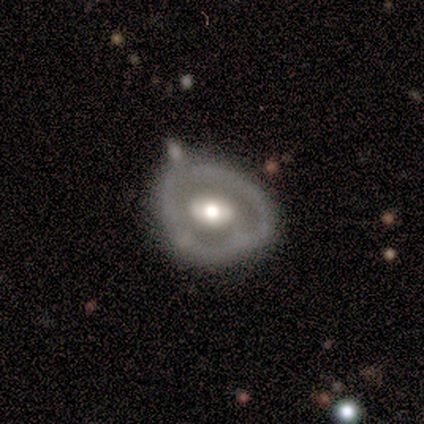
Smooth or featured?
  - featured or disk: 67% *
  - smooth: 33%
  - star or artifact: 0%
Edge-on disk?
  - no: 100% *
  - yes: 0%
Bar?
  - no: 67% *
  - strong: 17%
  - weak: 17%
Spiral arms?
  - no: 83% *
  - yes: 17%
Bulge size?
  - moderate: 67% *
  - large: 17%
  - small: 17%
  - dominant: 0%
  - none: 0%
Merging?
  - minor disturbance: 33% *
  - none: 22%
  - major disturbance: 22%
  - merger: 22%